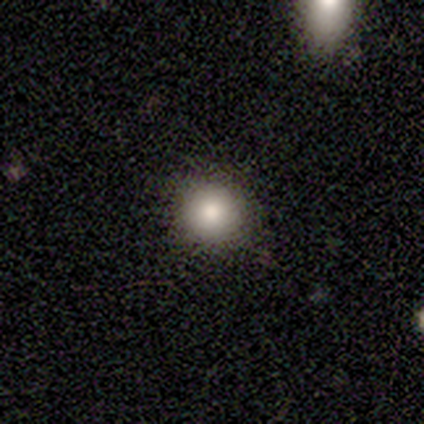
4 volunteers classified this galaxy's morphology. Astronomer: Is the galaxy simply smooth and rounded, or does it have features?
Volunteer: smooth — 75%.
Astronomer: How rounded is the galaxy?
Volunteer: round — 100%.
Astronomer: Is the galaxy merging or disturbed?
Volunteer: none — 75%.